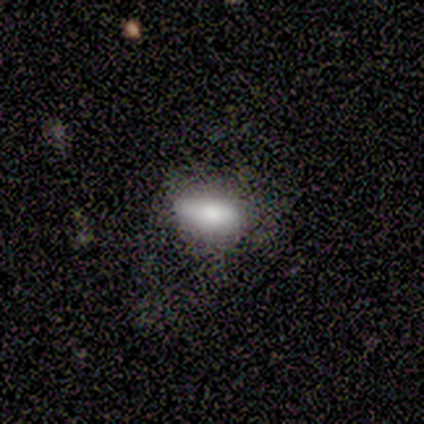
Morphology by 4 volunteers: smooth-or-featured: smooth: 50% | featured or disk: 25% | star or artifact: 25%
  how-rounded: in between: 100% | round: 0% | cigar-shaped: 0%
  merging: none: 67% | major disturbance: 33% | minor disturbance: 0% | merger: 0%